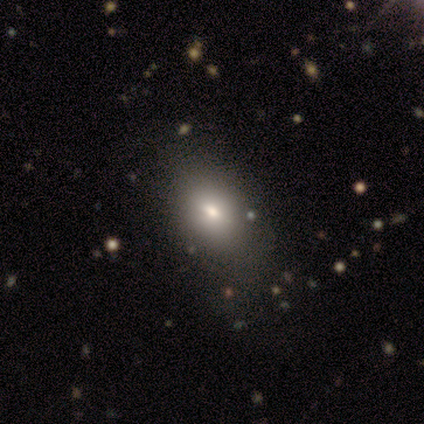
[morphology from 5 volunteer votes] smooth-or-featured: smooth: 100% | featured or disk: 0% | star or artifact: 0%
  how-rounded: round: 60% | in between: 40% | cigar-shaped: 0%
  merging: none: 80% | minor disturbance: 20% | major disturbance: 0% | merger: 0%